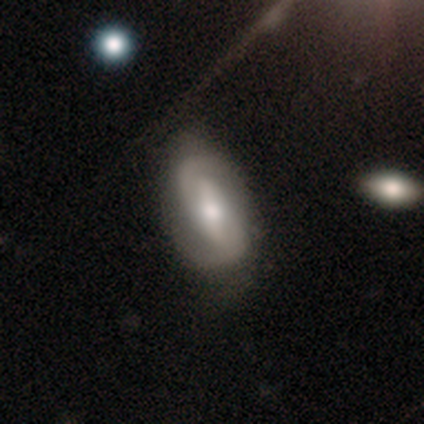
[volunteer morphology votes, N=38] Volunteers were most divided on "bar": strong: 46%, weak: 42%, no: 12%. Remaining: edge-on disk — no (96%); spiral arms — yes (96%); spiral arm count — 2 (96%); smooth or featured — featured or disk (71%); bulge size — moderate (54%); spiral winding — tight (44%); merging — none (38%).